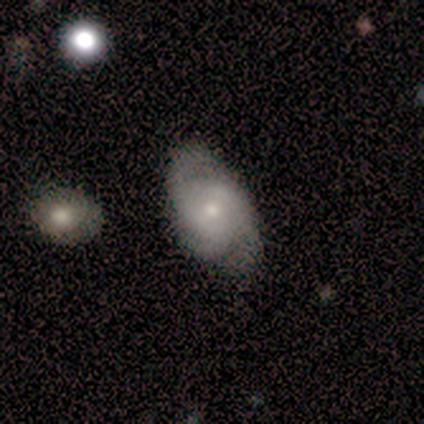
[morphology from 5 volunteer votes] Smooth or featured? 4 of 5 (80%) said featured or disk. Edge-on disk? 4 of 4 (100%) said no. Bar? 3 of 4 (75%) said no. Spiral arms? 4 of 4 (100%) said yes. Spiral winding? 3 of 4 (75%) said medium. Spiral arm count? 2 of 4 (50%, tied with can't tell) said 3. Bulge size? 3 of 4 (75%) said moderate. Merging? 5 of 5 (100%) said none.